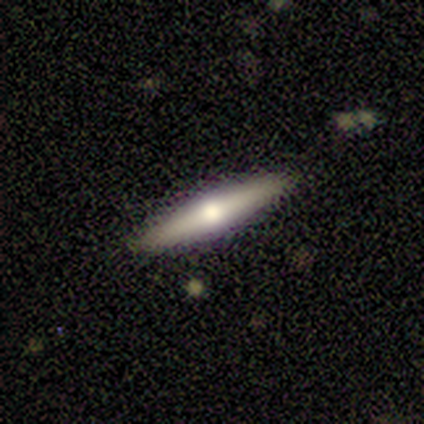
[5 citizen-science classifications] A smooth galaxy with no disk features (40%, tied with featured or disk) that is cigar-shaped (100%).

Vote fractions:
- Smooth or featured? smooth: 40% (tied) / featured or disk: 40% (tied) / star or artifact: 20%
- How rounded? cigar-shaped: 100% / round: 0% / in between: 0%
- Merging? none: 100% / minor disturbance: 0% / major disturbance: 0% / merger: 0%